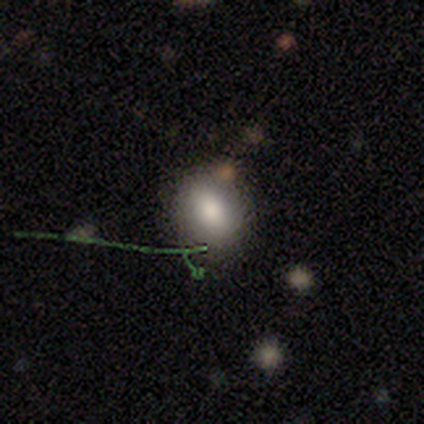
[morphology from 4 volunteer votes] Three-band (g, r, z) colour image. It shows a smooth galaxy with no disk features (50%, tied with star or artifact) that is round (50%, tied with in between). Merging: none (50%, tied with merger).